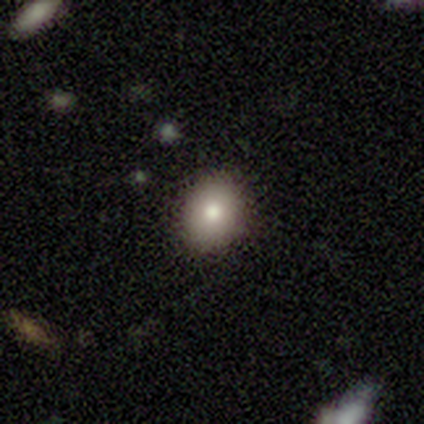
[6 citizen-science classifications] A smooth galaxy with no disk features (83%) that is in between round and cigar-shaped (80%).

Vote fractions:
- Smooth or featured? smooth: 83% / featured or disk: 17% / star or artifact: 0%
- How rounded? in between: 80% / round: 20% / cigar-shaped: 0%
- Merging? none: 100% / minor disturbance: 0% / major disturbance: 0% / merger: 0%